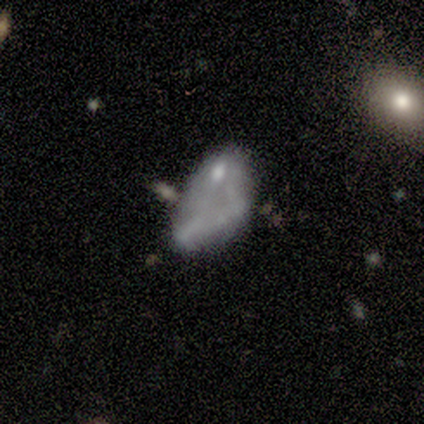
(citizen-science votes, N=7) Volunteers were most divided on "bulge size" (3-way tie): large: 33%, small: 33%, none: 33%, dominant: 0%, moderate: 0%; "merging" (3-way tie): none: 29%, minor disturbance: 29%, merger: 29%, major disturbance: 14%. More confident: spiral arms — no (100%); edge-on disk — no (75%); bar — no (67%); smooth or featured — featured or disk (57%).